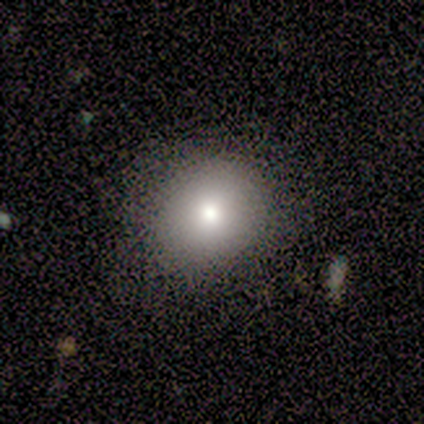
This is clearly a smooth galaxy (82%). How rounded: clearly round (84%). Merging: likely none (67%).